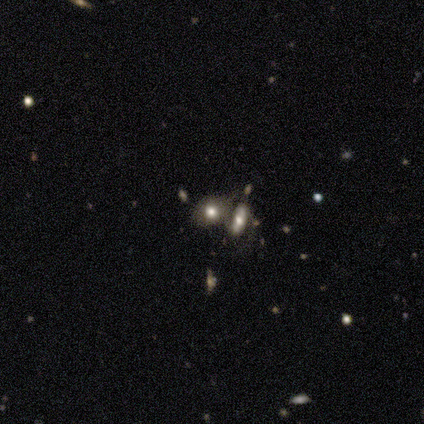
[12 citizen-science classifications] Smooth or featured? 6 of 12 (50%) said smooth. How rounded? 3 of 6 (50%, tied with in between) said round. Merging? 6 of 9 (67%) said merger.